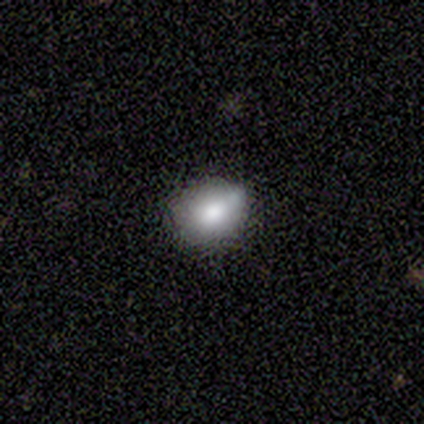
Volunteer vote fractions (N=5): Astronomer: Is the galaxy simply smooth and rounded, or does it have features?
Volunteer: smooth — 60% (runner-up: star or artifact, 40%).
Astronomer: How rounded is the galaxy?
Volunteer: in between — 67%.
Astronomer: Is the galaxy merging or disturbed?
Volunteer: none — 67%.